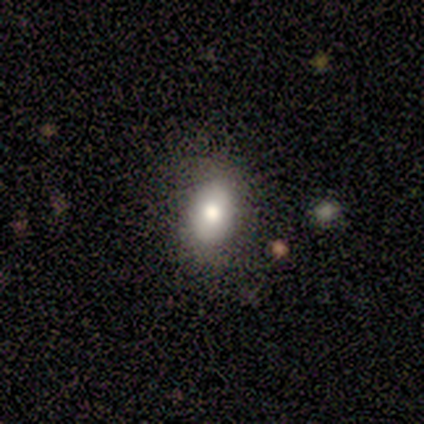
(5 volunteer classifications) Volunteers were most divided on "merging": none: 75%, minor disturbance: 25%, major disturbance: 0%, merger: 0%. More confident: how rounded — in between (100%); smooth or featured — smooth (80%).